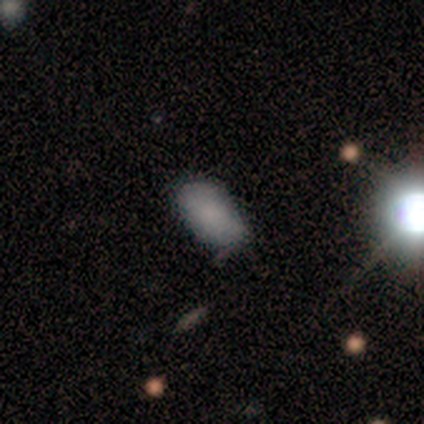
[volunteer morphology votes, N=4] This is likely a smooth galaxy (75%). How rounded: clearly in between (100%). Merging: likely minor disturbance (67%).